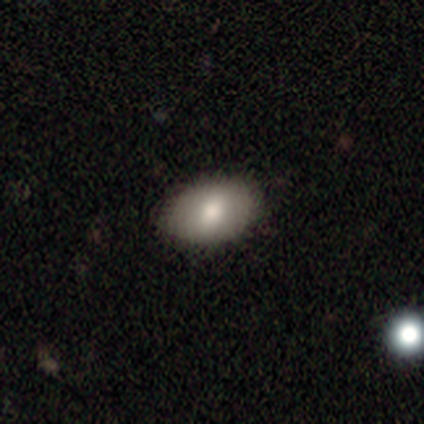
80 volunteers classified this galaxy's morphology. smooth-or-featured: smooth: 72% | star or artifact: 16% | featured or disk: 11%
  how-rounded: in between: 83% | round: 14% | cigar-shaped: 3%
  merging: none: 88% | minor disturbance: 12% | major disturbance: 0% | merger: 0%